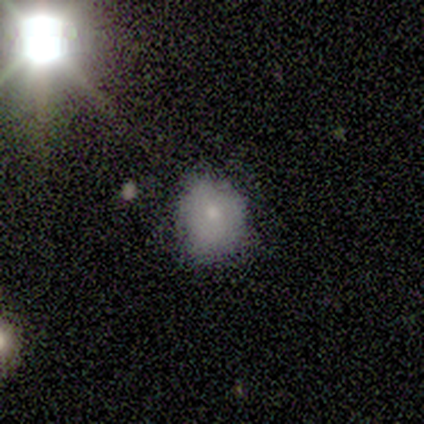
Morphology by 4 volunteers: smooth 75%, featured or disk 25%, star or artifact 0%. Down the decision tree: how rounded — round (67%); merging — none (100%).